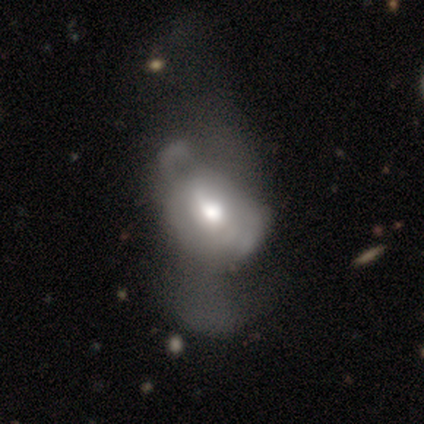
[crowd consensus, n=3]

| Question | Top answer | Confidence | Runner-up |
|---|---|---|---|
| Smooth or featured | featured or disk | 67% | smooth (33%) |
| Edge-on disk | no | 100% | — |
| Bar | weak | 50% | tied: no (50%) |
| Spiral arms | yes | 50% | tied: no (50%) |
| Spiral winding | medium | 100% | — |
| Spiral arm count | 2 | 100% | — |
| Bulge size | large | 50% | tied: moderate (50%) |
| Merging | major disturbance | 67% | minor disturbance (33%) |